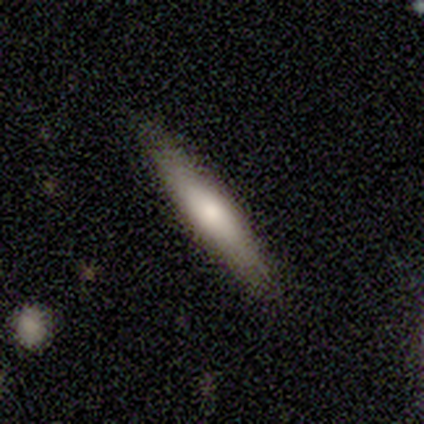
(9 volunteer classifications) A smooth galaxy with no disk features (89%) that is cigar-shaped (100%). Merging: none (78%).